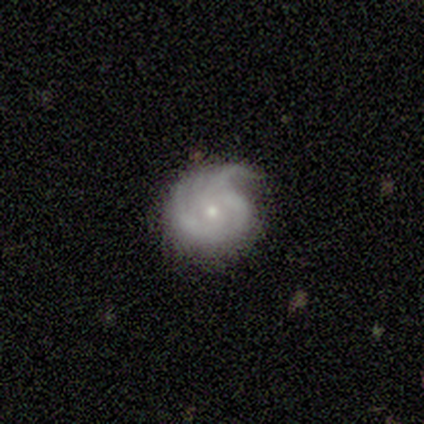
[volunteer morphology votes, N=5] Smooth or featured? featured or disk (100%)
Edge-on disk? no (100%)
Bar? no (80%)
Spiral arms? yes (100%)
Spiral winding? tight (40%, tied with medium)
Spiral arm count? 3 (60%)
Bulge size? small (80%)
Merging? none (80%)